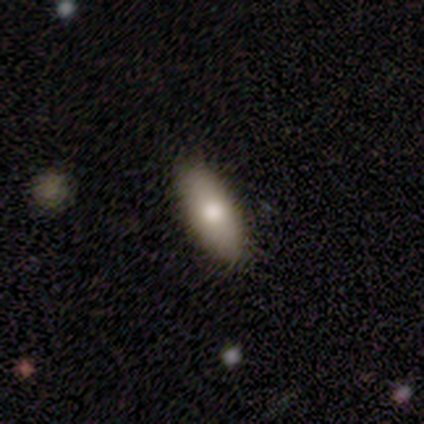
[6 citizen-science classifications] A smooth galaxy with no disk features (83%) that is in between round and cigar-shaped (100%).

Vote fractions:
- Smooth or featured? smooth: 83% / star or artifact: 17% / featured or disk: 0%
- How rounded? in between: 100% / round: 0% / cigar-shaped: 0%
- Merging? none: 100% / minor disturbance: 0% / major disturbance: 0% / merger: 0%